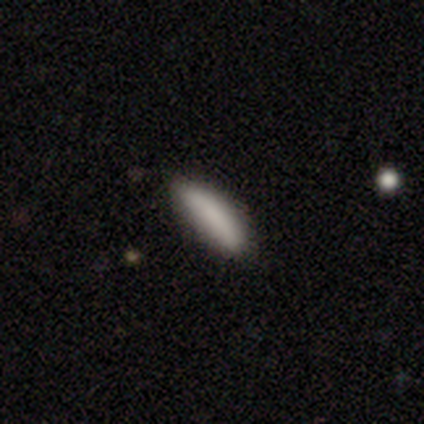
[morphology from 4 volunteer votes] Overall: smooth (100%). How rounded: cigar-shaped (100%). Merging: none (100%).